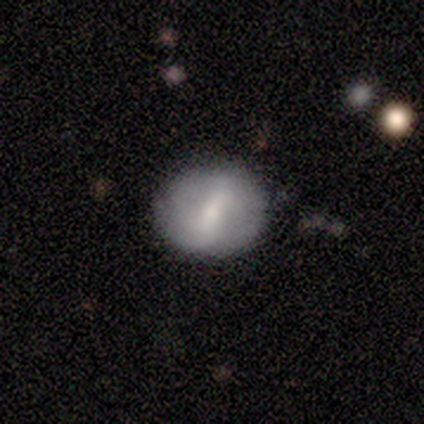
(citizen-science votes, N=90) Smooth or featured: featured or disk — 52% (smooth — 42%)
Edge-on disk: no — 91% (yes — 9%)
Bar: weak — 51% (strong — 49%)
Spiral arms: no — 56% (yes — 44%)
Bulge size: moderate — 58% (small — 28%)
Merging: none — 85% (minor disturbance — 11%)